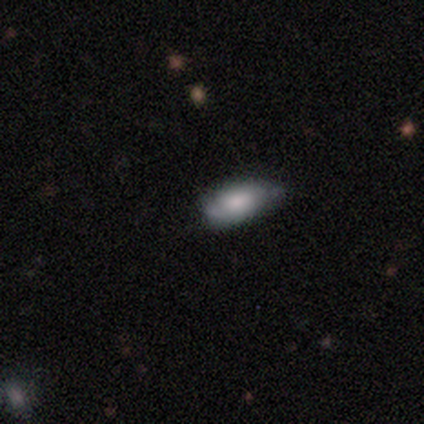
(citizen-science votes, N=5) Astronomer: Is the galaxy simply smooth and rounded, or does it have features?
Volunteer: smooth — 60% (runner-up: featured or disk, 40%).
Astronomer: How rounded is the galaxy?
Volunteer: in between — 100%.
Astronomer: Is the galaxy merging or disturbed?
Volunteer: none — 100%.